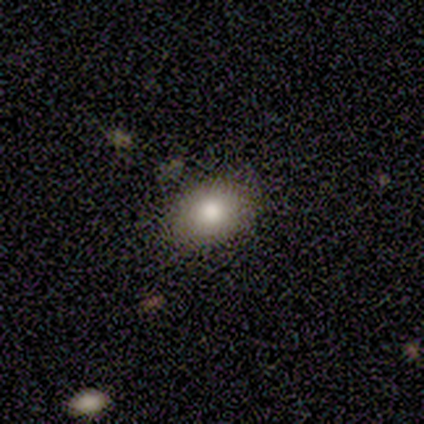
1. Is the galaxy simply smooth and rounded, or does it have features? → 100% smooth, 0% featured or disk, 0% star or artifact.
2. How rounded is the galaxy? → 100% in between, 0% round, 0% cigar-shaped.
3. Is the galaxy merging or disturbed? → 75% none, 25% minor disturbance, 0% major disturbance, 0% merger.